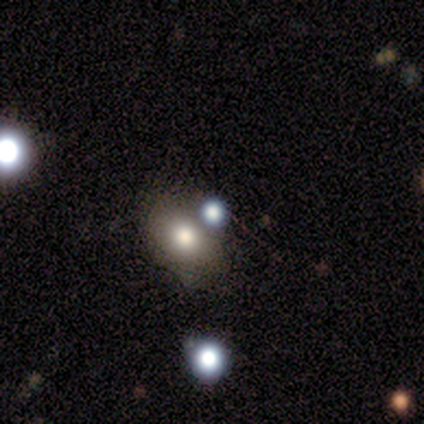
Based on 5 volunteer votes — smooth-or-featured: smooth: 80% | featured or disk: 20% | star or artifact: 0%
  how-rounded: round: 50% (tied) | in between: 50% (tied) | cigar-shaped: 0%
  merging: none: 40% (tied) | minor disturbance: 40% (tied) | merger: 20% | major disturbance: 0%